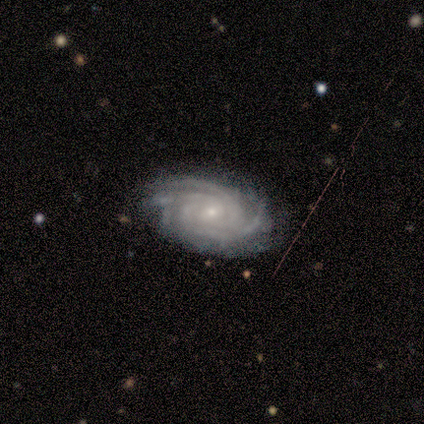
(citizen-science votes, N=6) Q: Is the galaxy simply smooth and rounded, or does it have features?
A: featured or disk — 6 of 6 (100%).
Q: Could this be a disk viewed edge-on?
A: no — 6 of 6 (100%).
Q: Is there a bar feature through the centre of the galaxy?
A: no — 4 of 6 (67%).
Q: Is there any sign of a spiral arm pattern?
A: yes — 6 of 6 (100%).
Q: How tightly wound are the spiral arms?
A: tight — 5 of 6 (83%).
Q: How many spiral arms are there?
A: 4 — 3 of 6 (50%).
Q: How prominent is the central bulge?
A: small — 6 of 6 (100%).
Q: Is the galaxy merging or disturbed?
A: none — 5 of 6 (83%).